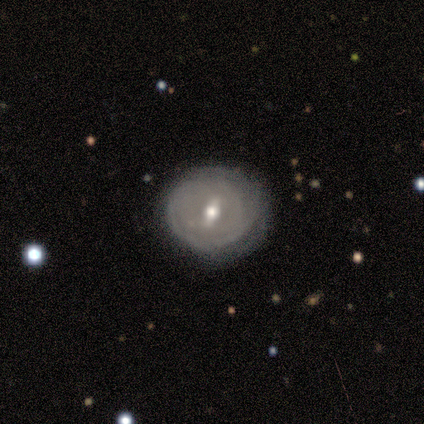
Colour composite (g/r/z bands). It shows a smooth galaxy with no disk features (40%, tied with featured or disk) that is round (100%). Merging: none (75%).